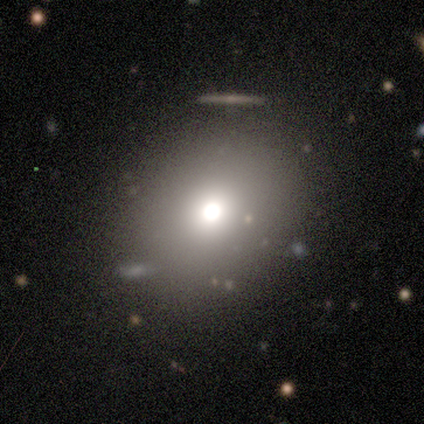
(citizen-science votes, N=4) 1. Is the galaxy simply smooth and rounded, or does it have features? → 50% featured or disk, 25% smooth, 25% star or artifact.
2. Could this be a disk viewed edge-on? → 100% no, 0% yes.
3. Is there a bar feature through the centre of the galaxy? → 100% no, 0% strong, 0% weak.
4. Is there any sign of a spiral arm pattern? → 100% no, 0% yes.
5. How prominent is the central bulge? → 50% large (tied), 50% moderate (tied), 0% dominant, 0% small, 0% none.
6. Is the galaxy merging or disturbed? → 67% none, 33% merger, 0% minor disturbance, 0% major disturbance.